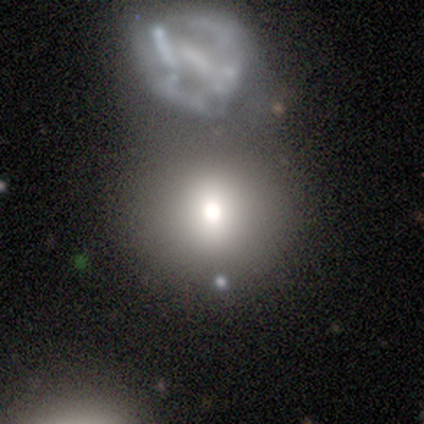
Smooth or featured?
  - smooth: 60% *
  - featured or disk: 20%
  - star or artifact: 20%
How rounded?
  - round: 100% *
  - in between: 0%
  - cigar-shaped: 0%
Merging?
  - none: 50% * (tied)
  - merger: 50% * (tied)
  - minor disturbance: 0%
  - major disturbance: 0%